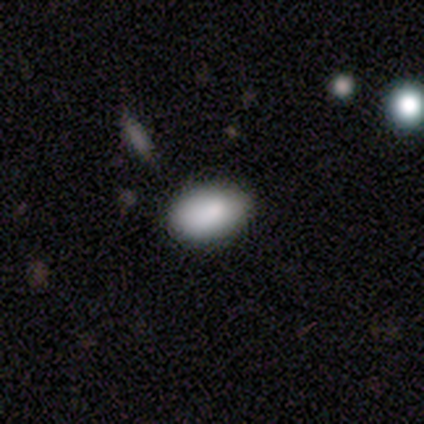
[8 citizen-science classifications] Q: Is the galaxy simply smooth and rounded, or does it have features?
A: smooth — 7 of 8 (88%).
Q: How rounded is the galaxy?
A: in between — 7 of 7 (100%).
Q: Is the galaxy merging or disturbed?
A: none — 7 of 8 (88%).